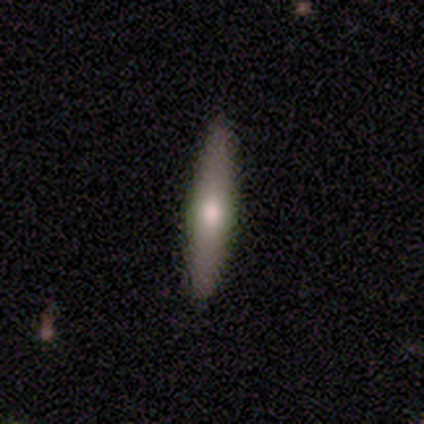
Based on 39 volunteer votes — smooth_or_featured: smooth (p=0.51) [alt: featured or disk p=0.41]
how_rounded: cigar-shaped (p=1.00)
merging: none (p=0.97) [alt: minor disturbance p=0.03]